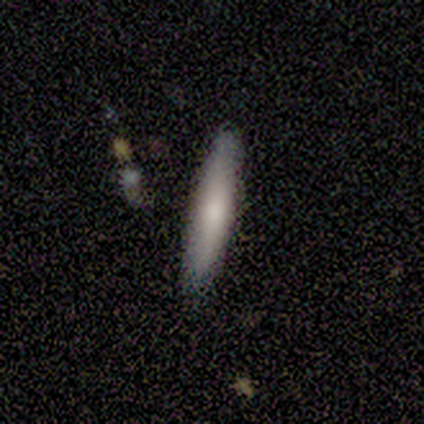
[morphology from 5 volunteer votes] Smooth or featured?
  - smooth: 80% *
  - star or artifact: 20%
  - featured or disk: 0%
How rounded?
  - cigar-shaped: 100% *
  - round: 0%
  - in between: 0%
Merging?
  - none: 50% * (tied)
  - minor disturbance: 50% * (tied)
  - major disturbance: 0%
  - merger: 0%